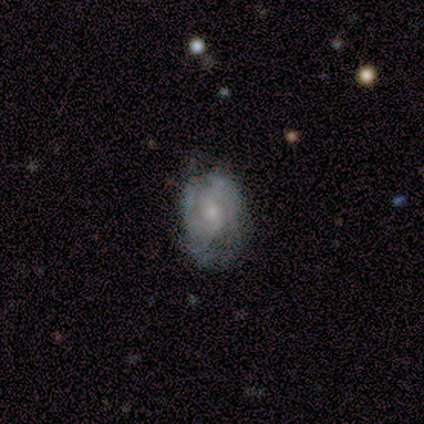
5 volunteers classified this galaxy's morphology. smooth_or_featured: featured or disk (p=0.60) [alt: smooth p=0.20]
disk_edge_on: no (p=1.00)
bar: weak (p=0.67) [alt: no p=0.33]
has_spiral_arms: yes (p=1.00)
spiral_winding: tight (p=1.00)
spiral_arm_count: 2 (p=0.33) [tied with: 4 p=0.33, can't tell p=0.33]
bulge_size: small (p=0.67) [alt: moderate p=0.33]
merging: none (p=0.75) [alt: minor disturbance p=0.25]